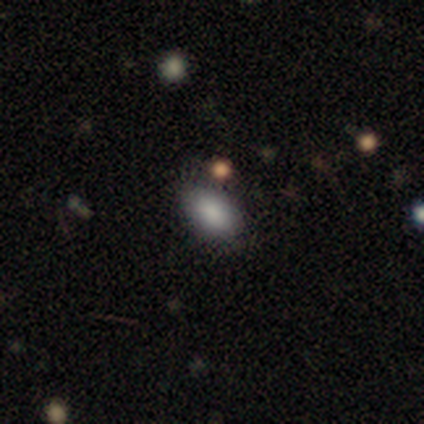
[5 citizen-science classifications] smooth_or_featured: smooth (p=1.00)
how_rounded: in between (p=1.00)
merging: none (p=1.00)